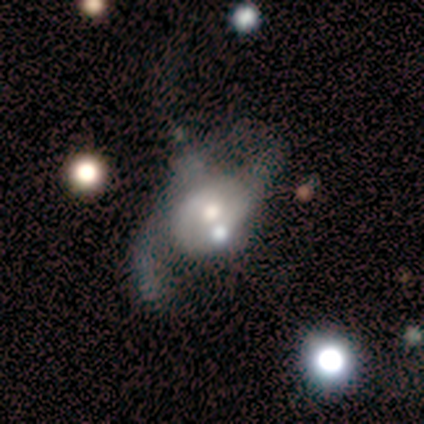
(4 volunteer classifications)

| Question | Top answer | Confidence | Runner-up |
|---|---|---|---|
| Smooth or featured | featured or disk | 75% | smooth (25%) |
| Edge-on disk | no | 100% | — |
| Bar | no | 100% | — |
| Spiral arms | yes | 67% | no (33%) |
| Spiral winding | loose | 100% | — |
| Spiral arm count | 2 | 50% | tied: can't tell (50%) |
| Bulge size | moderate | 67% | small (33%) |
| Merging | major disturbance | 50% | minor disturbance (25%) |